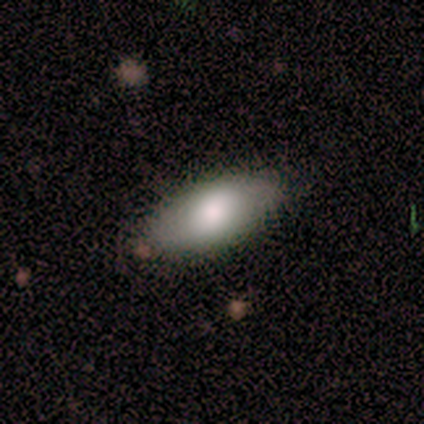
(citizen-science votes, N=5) Volunteers were most divided on "smooth or featured": smooth: 60%, featured or disk: 20%, star or artifact: 20%. More confident: how rounded — in between (100%); merging — none (75%).